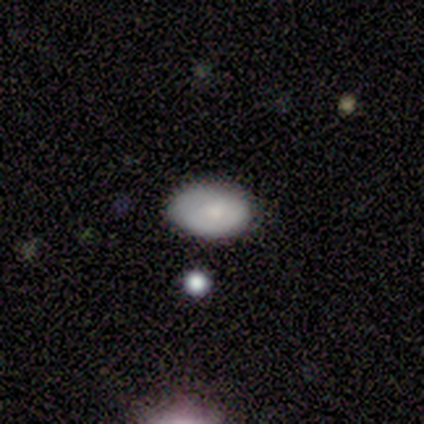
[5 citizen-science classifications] Overall: smooth (80%). How rounded: in between (100%). Merging: none (80%).